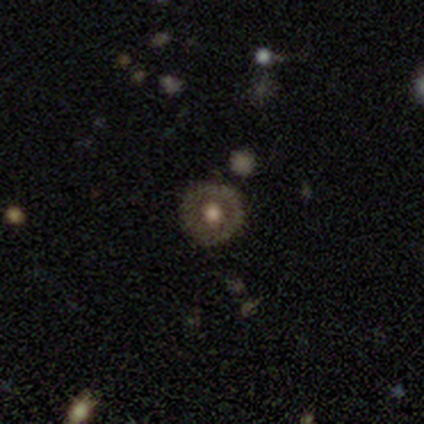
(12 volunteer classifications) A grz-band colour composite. It shows a smooth galaxy with no disk features (50%) that is round (100%). Merging: none (82%).